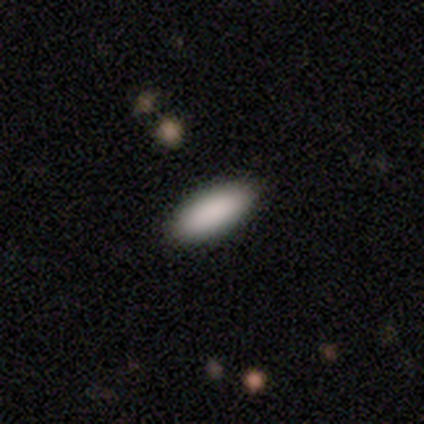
A smooth galaxy with no disk features (100%) that is in between round and cigar-shaped (60%).

Vote fractions:
- Smooth or featured? smooth: 100% / featured or disk: 0% / star or artifact: 0%
- How rounded? in between: 60% / cigar-shaped: 40% / round: 0%
- Merging? none: 100% / minor disturbance: 0% / major disturbance: 0% / merger: 0%